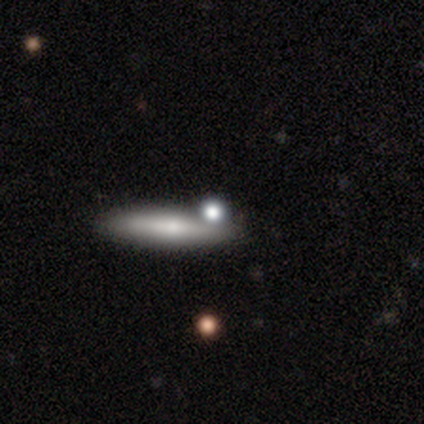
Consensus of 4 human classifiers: smooth_or_featured: featured or disk (p=0.75) [alt: smooth p=0.25]
disk_edge_on: yes (p=1.00)
edge_on_bulge: none (p=0.67) [alt: rounded p=0.33]
merging: none (p=0.50) [tied with: merger p=0.50]